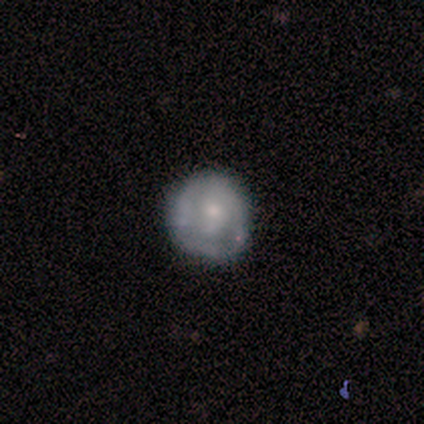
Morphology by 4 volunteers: smooth_or_featured: featured or disk (p=0.75) [alt: star or artifact p=0.25]
disk_edge_on: no (p=1.00)
bar: no (p=0.67) [alt: weak p=0.33]
has_spiral_arms: no (p=0.67) [alt: yes p=0.33]
bulge_size: small (p=1.00)
merging: none (p=0.67) [alt: minor disturbance p=0.33]